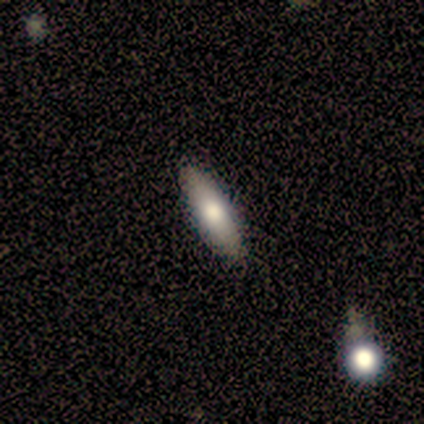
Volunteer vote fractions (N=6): Smooth or featured? smooth (83%)
How rounded? in between (60%)
Merging? none (100%)